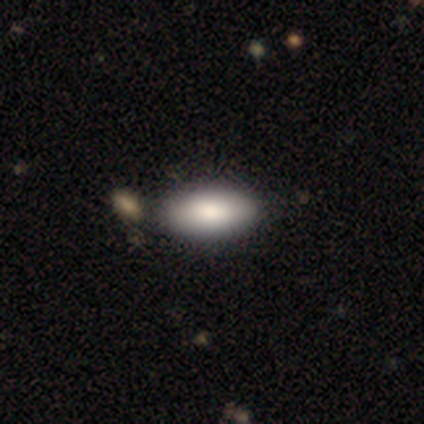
smooth 67%, featured or disk 33%, star or artifact 0%. Down the decision tree: how rounded — in between (100%); merging — merger (50%).